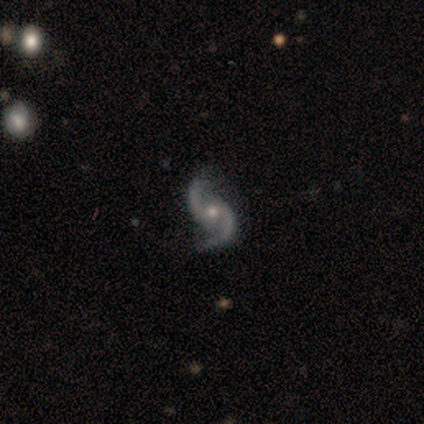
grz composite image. It shows a featured or disk galaxy (100%) with no bar (60%), 2 (100%) medium (60%) spiral arms (100%) and a moderate central bulge (60%). Merging: none (80%).